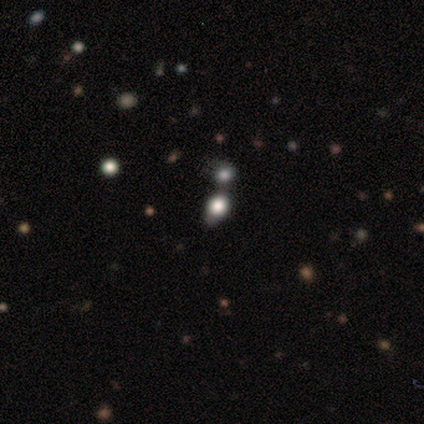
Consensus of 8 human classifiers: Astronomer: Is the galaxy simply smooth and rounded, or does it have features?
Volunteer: smooth — 88%.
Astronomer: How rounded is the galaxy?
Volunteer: round — 57% (runner-up: in between, 43%).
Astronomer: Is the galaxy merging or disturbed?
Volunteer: merger — 57% (runner-up: none, 43%).